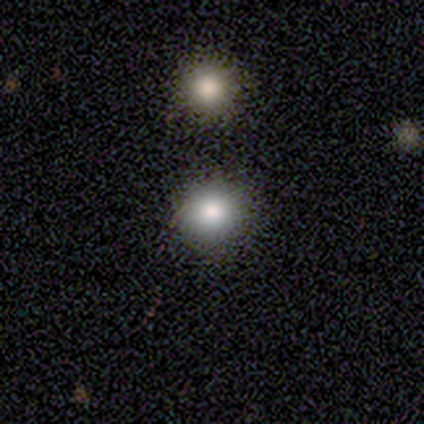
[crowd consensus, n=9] Morphology: type=smooth (67%); roundness=round (67%); merging=none (67%).